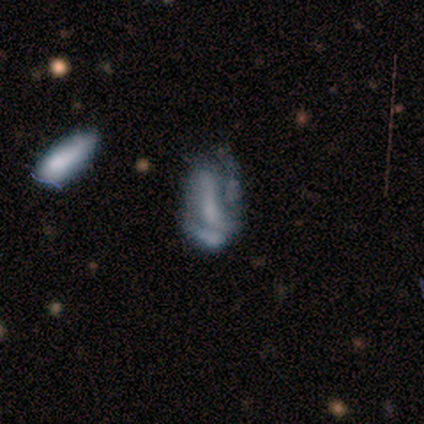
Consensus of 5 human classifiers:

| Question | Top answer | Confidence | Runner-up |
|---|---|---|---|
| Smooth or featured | featured or disk | 80% | smooth (20%) |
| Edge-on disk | no | 100% | — |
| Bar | strong | 50% | weak (25%) |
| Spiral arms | no | 75% | yes (25%) |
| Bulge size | none | 50% | large (25%) |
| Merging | major disturbance | 60% | none (40%) |